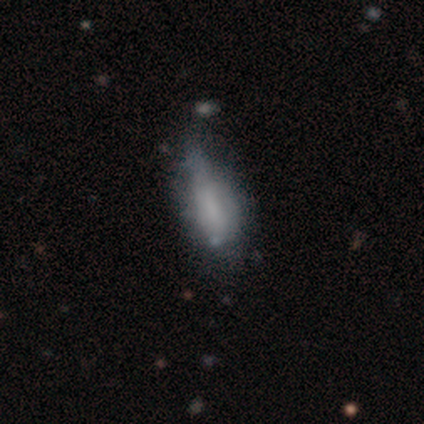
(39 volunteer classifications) smooth-or-featured: smooth: 69% | featured or disk: 31% | star or artifact: 0%
  how-rounded: in between: 78% | cigar-shaped: 22% | round: 0%
  merging: minor disturbance: 44% | none: 21% | major disturbance: 8% | merger: 5%